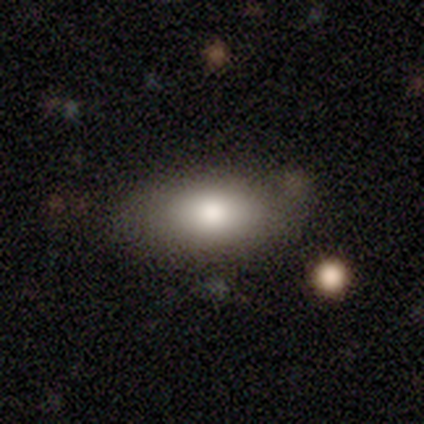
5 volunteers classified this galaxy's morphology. Overall: smooth (100%). How rounded: in between (100%). Merging: none (40%, tied with minor disturbance).